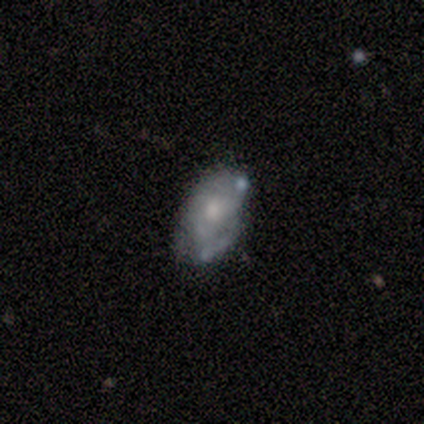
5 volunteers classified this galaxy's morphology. Smooth or featured: featured or disk — 60% (smooth — 20%)
Edge-on disk: no — 100%
Bar: no — 100%
Spiral arms: yes — 100%
Spiral winding: medium — 100%
Spiral arm count: 2 — 33% (tied with 4 — 33%; can't tell — 33%)
Bulge size: moderate — 67% (large — 33%)
Merging: none — 75% (major disturbance — 25%)